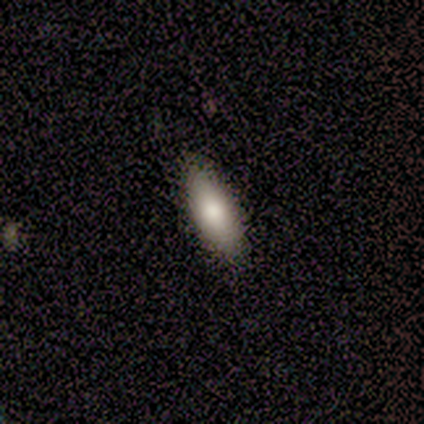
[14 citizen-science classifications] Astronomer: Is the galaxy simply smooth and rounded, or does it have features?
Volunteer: smooth — 86%.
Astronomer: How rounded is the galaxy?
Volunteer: in between — 83%.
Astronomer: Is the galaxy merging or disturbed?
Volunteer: none — 71%.